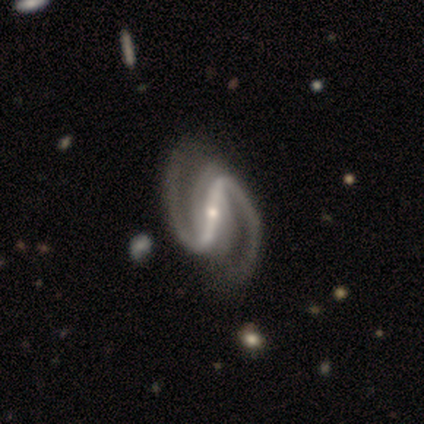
Smooth or featured? 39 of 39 (100%) said featured or disk. Edge-on disk? 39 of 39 (100%) said no. Bar? 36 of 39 (92%) said strong. Spiral arms? 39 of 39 (100%) said yes. Spiral winding? 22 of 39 (56%) said medium. Spiral arm count? 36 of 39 (92%) said 2. Bulge size? 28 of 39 (72%) said small. Merging? 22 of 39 (56%) said none.